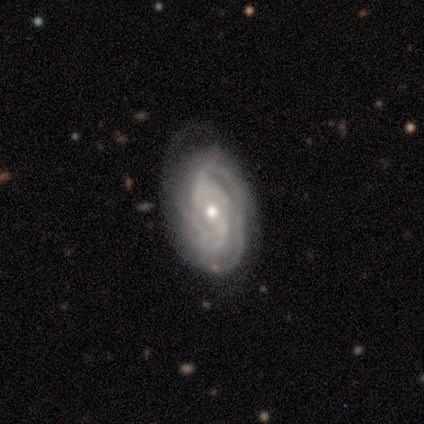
smooth_or_featured: featured or disk (p=1.00)
disk_edge_on: no (p=1.00)
bar: no (p=0.80) [alt: weak p=0.20]
has_spiral_arms: yes (p=1.00)
spiral_winding: tight (p=1.00)
spiral_arm_count: can't tell (p=0.80) [alt: 2 p=0.20]
bulge_size: small (p=1.00)
merging: none (p=0.80) [alt: minor disturbance p=0.20]